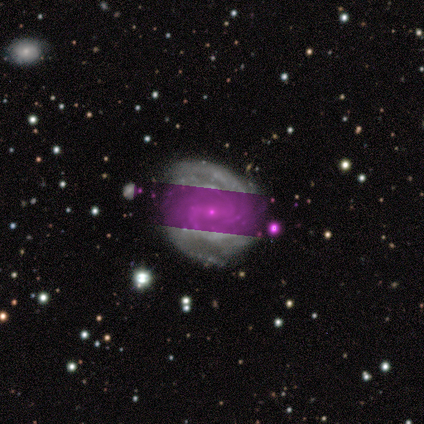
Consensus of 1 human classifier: Consensus on every question: smooth or featured — star or artifact (100%).